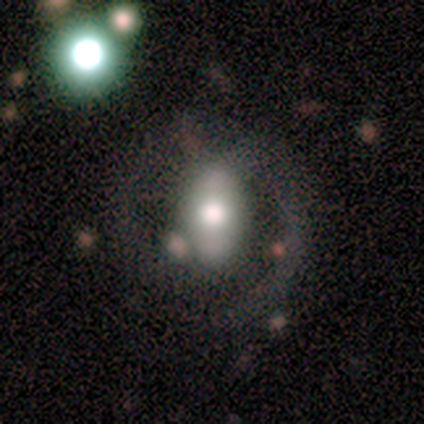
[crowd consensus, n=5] A smooth galaxy with no disk features (60%) that is in between round and cigar-shaped (67%).

Vote fractions:
- Smooth or featured? smooth: 60% / featured or disk: 40% / star or artifact: 0%
- How rounded? in between: 67% / round: 33% / cigar-shaped: 0%
- Merging? none: 100% / minor disturbance: 0% / major disturbance: 0% / merger: 0%